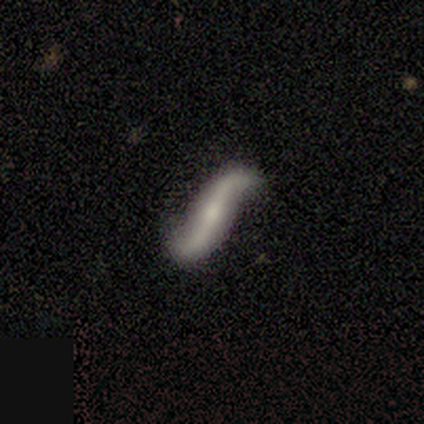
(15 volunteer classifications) Smooth or featured? featured or disk (80%)
Edge-on disk? no (92%)
Bar? no (45%)
Spiral arms? yes (73%)
Spiral winding? loose (100%)
Spiral arm count? 2 (88%)
Bulge size? moderate (36%, tied with small)
Merging? none (79%)